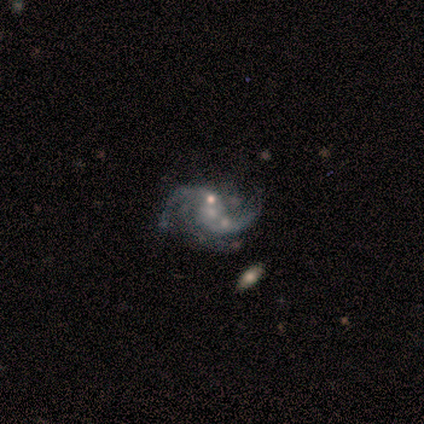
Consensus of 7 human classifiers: featured or disk 100%, smooth 0%, star or artifact 0%. Down the decision tree: edge-on disk — no (100%); bar — no (86%); spiral arms — yes (100%); spiral arm count — 2 (86%); spiral winding — loose (71%); bulge size — small (43%, tied with none); merging — none (29%, tied with minor disturbance and major disturbance).